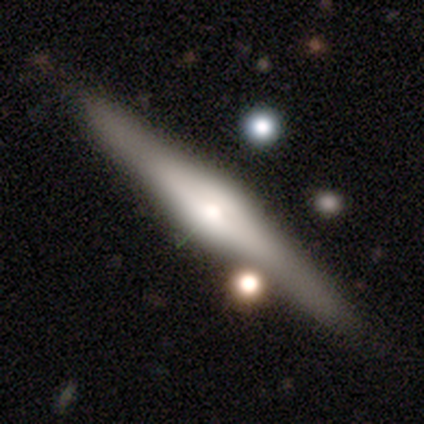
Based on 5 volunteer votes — Q: Smooth or featured?
A: featured or disk (100%)
Q: Edge-on disk?
A: yes (100%)
Q: Edge-on bulge?
A: rounded (100%)
Q: Merging?
A: none (100%)